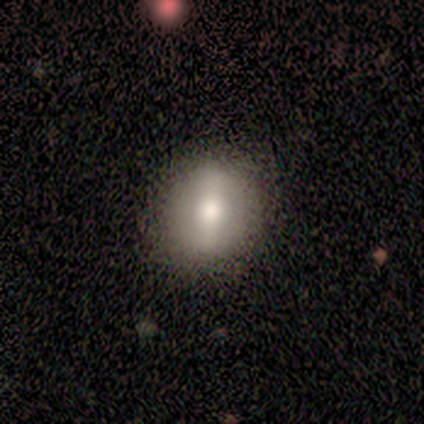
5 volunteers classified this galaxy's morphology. Smooth or featured? smooth (40%, tied with featured or disk)
How rounded? round (50%, tied with in between)
Merging? none (75%)